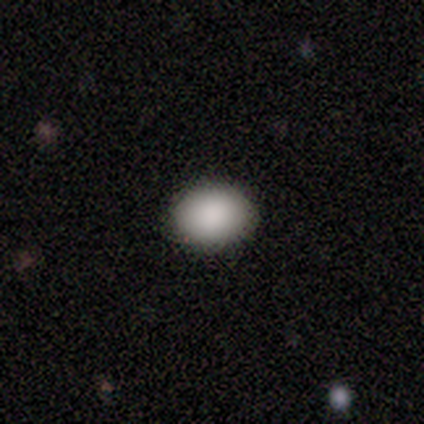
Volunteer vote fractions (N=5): smooth-or-featured: smooth: 100% | featured or disk: 0% | star or artifact: 0%
  how-rounded: in between: 60% | round: 40% | cigar-shaped: 0%
  merging: none: 100% | minor disturbance: 0% | major disturbance: 0% | merger: 0%